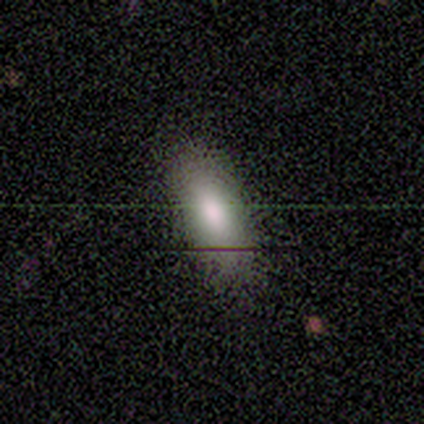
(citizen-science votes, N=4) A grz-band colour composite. It shows a smooth galaxy with no disk features (100%) that is in between round and cigar-shaped (75%). Merging: none (75%).